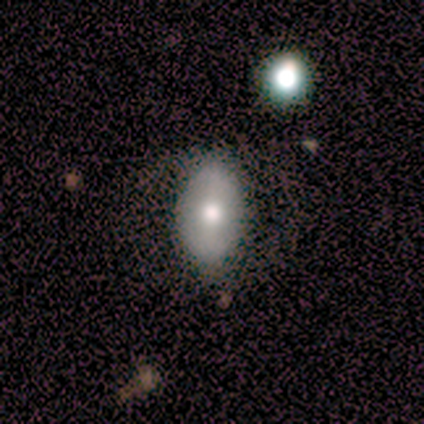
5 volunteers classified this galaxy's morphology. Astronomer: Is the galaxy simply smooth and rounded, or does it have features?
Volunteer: smooth — 100%.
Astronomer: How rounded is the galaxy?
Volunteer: in between — 80%.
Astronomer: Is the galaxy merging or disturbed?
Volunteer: none — 80%.